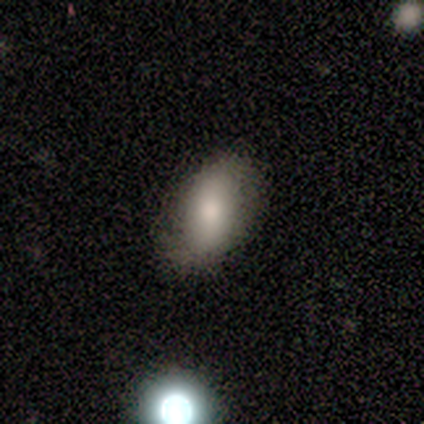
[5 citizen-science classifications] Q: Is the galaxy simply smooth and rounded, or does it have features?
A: smooth — 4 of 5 (80%).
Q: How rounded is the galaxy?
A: in between — 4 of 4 (100%).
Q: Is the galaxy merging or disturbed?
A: none — 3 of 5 (60%).